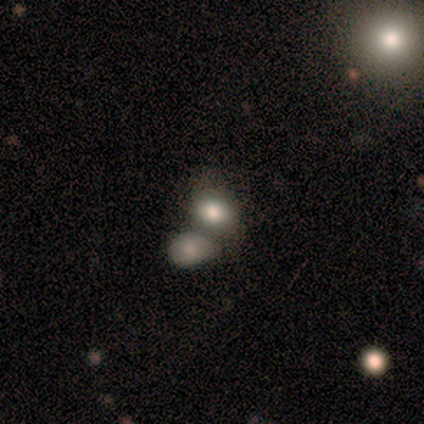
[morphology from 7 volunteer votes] smooth-or-featured: smooth: 57% | featured or disk: 43% | star or artifact: 0%
  how-rounded: in between: 75% | round: 25% | cigar-shaped: 0%
  merging: merger: 71% | none: 14% | minor disturbance: 14% | major disturbance: 0%